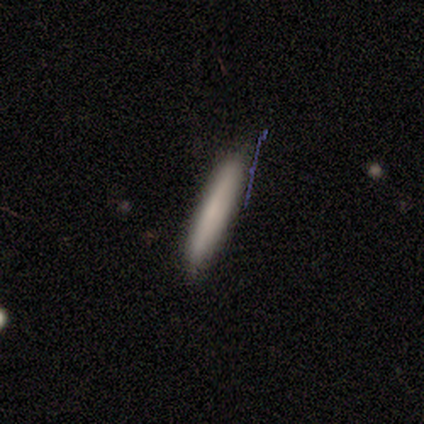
This is likely a smooth galaxy (60%). How rounded: clearly cigar-shaped (100%). Merging: clearly none (100%).